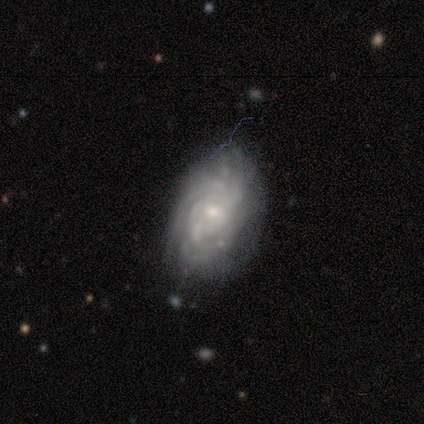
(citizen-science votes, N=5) Smooth or featured: featured or disk — 100%
Edge-on disk: no — 100%
Bar: no — 80% (weak — 20%)
Spiral arms: yes — 100%
Spiral winding: tight — 80% (medium — 20%)
Spiral arm count: can't tell — 60% (3 — 40%)
Bulge size: small — 80% (moderate — 20%)
Merging: none — 80% (minor disturbance — 20%)